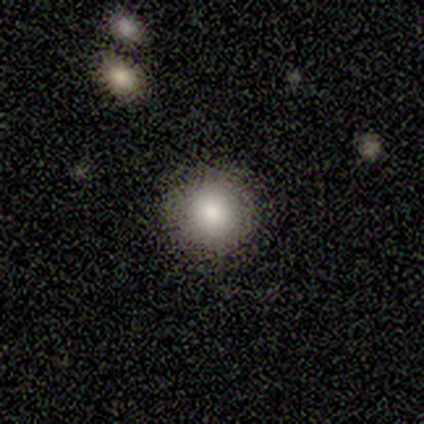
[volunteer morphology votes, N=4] Smooth or featured?
  - smooth: 75% *
  - featured or disk: 25%
  - star or artifact: 0%
How rounded?
  - round: 100% *
  - in between: 0%
  - cigar-shaped: 0%
Merging?
  - none: 100% *
  - minor disturbance: 0%
  - major disturbance: 0%
  - merger: 0%